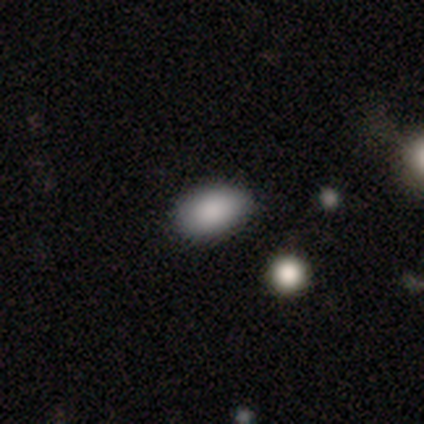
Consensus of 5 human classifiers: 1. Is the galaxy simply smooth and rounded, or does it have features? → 100% smooth, 0% featured or disk, 0% star or artifact.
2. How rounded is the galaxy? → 80% in between, 20% round, 0% cigar-shaped.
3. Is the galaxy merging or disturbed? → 60% none, 20% minor disturbance, 20% merger, 0% major disturbance.